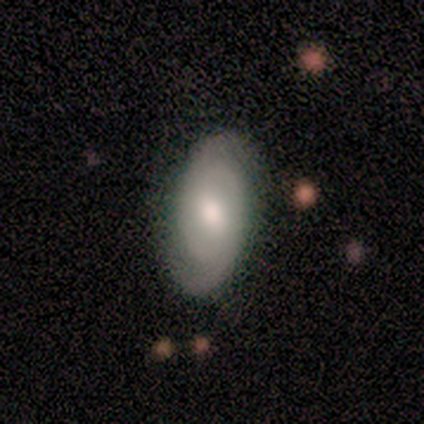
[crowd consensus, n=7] smooth-or-featured: smooth: 57% | featured or disk: 43% | star or artifact: 0%
  how-rounded: in between: 100% | round: 0% | cigar-shaped: 0%
  merging: none: 86% | minor disturbance: 14% | major disturbance: 0% | merger: 0%